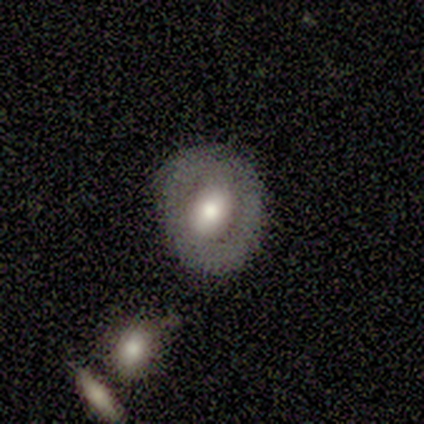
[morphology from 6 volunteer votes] Q: Smooth or featured?
A: smooth (50%); tied with: featured or disk (50%)
Q: How rounded?
A: round (67%); runner-up: in between (33%)
Q: Merging?
A: none (50%); tied with: minor disturbance (50%)